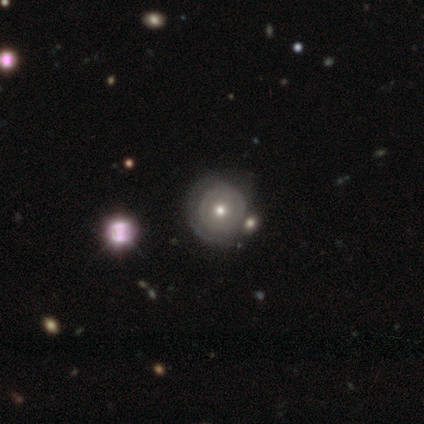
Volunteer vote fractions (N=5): Morphology: type=featured or disk (80%); edge-on=no (100%); bar=no (100%); spiral arms=yes (50%, tied with no); winding=tight (100%); arm count=3 (50%, tied with 4); bulge=small (50%); merging=none (40%, tied with merger).